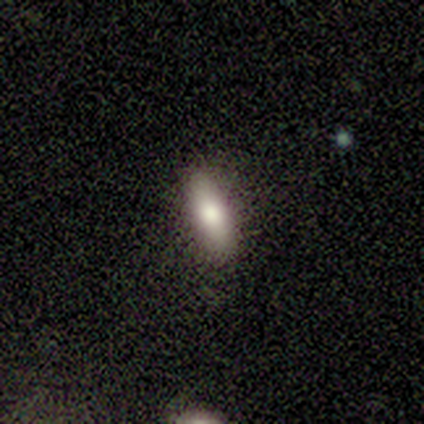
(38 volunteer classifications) This is clearly a smooth galaxy (82%). How rounded: possibly in between (48%, tied with cigar-shaped). Merging: clearly none (81%).